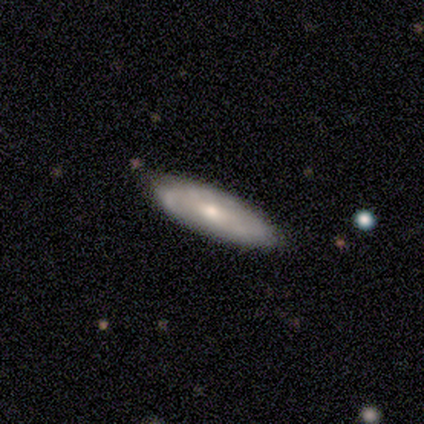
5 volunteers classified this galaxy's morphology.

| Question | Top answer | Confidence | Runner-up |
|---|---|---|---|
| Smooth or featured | featured or disk | 60% | smooth (40%) |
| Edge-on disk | no | 67% | yes (33%) |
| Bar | weak | 50% | tied: no (50%) |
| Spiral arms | yes | 50% | tied: no (50%) |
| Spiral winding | medium | 100% | — |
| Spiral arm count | can't tell | 100% | — |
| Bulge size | small | 100% | — |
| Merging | minor disturbance | 60% | none (40%) |